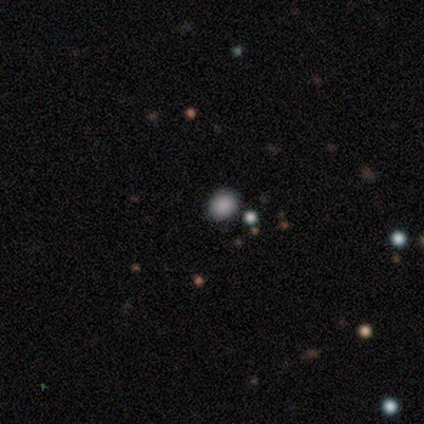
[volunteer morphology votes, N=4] This is clearly a smooth galaxy (100%). How rounded: possibly round (50%, tied with in between). Merging: clearly none (100%).